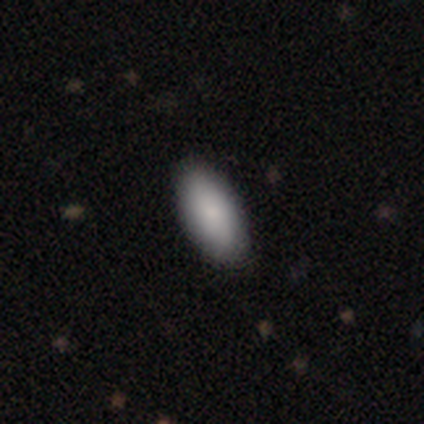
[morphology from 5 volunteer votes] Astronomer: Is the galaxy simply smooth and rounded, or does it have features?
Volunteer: smooth — 100%.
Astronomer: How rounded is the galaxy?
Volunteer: in between — 100%.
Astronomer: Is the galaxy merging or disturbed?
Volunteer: none — 100%.